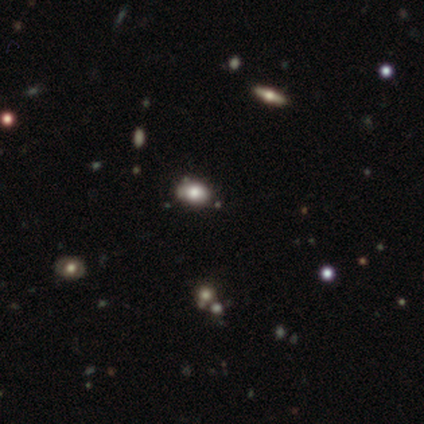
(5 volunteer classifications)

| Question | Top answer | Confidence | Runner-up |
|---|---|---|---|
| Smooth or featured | smooth | 60% | star or artifact (40%) |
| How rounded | round | 67% | in between (33%) |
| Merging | none | 100% | — |